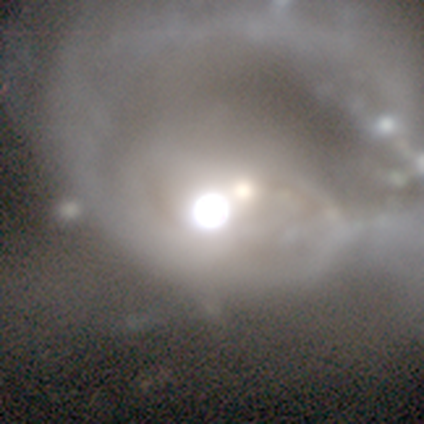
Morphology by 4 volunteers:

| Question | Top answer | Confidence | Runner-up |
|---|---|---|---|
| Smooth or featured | featured or disk | 50% | smooth (25%) |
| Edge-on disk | no | 100% | — |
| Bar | no | 100% | — |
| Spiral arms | yes | 100% | — |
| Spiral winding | tight | 50% | tied: loose (50%) |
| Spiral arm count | can't tell | 100% | — |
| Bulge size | large | 50% | tied: moderate (50%) |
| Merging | none | 33% | tied: major disturbance (33%), merger (33%) |